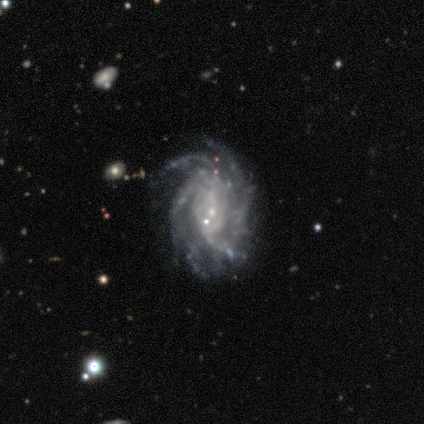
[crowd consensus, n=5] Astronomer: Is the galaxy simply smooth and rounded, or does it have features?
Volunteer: featured or disk — 80%.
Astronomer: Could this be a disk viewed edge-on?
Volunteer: no — 100%.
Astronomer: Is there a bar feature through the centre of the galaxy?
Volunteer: no — 75%.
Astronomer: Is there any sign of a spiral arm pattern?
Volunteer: yes — 100%.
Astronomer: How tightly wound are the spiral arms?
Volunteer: tight — 75%.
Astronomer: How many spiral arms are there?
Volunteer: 4 — 50%, tied with more than 4 at 50%.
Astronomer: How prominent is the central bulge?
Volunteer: small — 75%.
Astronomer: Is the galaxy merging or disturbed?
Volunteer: none — 60%.